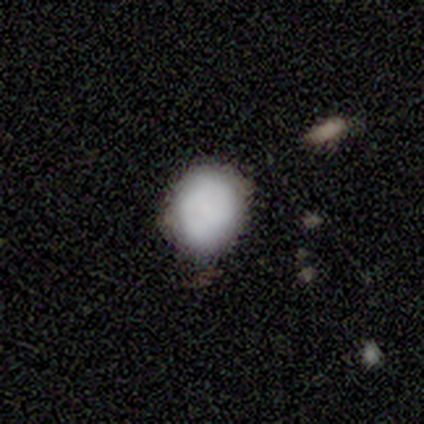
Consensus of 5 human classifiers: smooth-or-featured: smooth: 80% | star or artifact: 20% | featured or disk: 0%
  how-rounded: round: 75% | in between: 25% | cigar-shaped: 0%
  merging: none: 75% | minor disturbance: 25% | major disturbance: 0% | merger: 0%